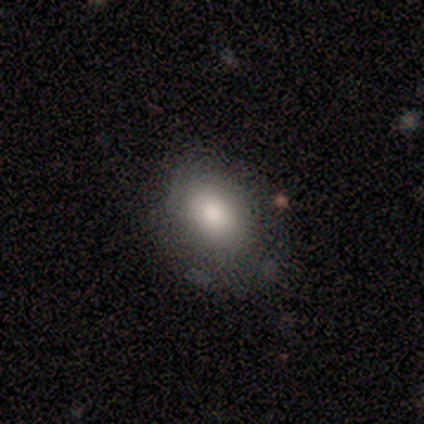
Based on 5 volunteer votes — This appears to be a smooth galaxy with no disk features (60%) that is round (33%, tied with in between and cigar-shaped). Merging: none (75%).